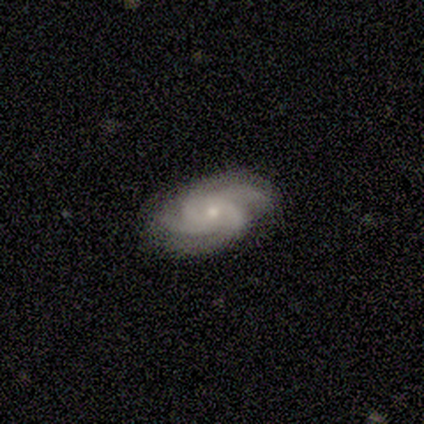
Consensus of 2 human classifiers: Smooth or featured? 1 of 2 (50%, tied with featured or disk) said smooth. How rounded? 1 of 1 (100%) said in between. Merging? 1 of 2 (50%, tied with minor disturbance) said none.